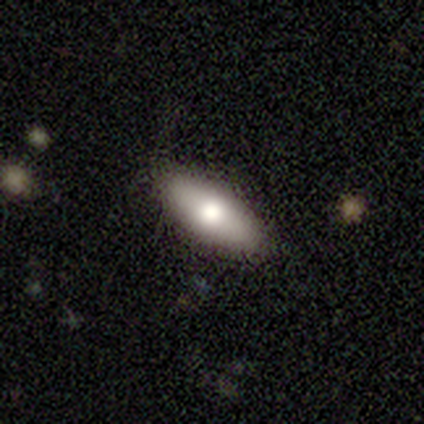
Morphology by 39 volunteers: This appears to be a smooth galaxy with no disk features (69%) that is in between round and cigar-shaped (78%). Merging: none (89%).